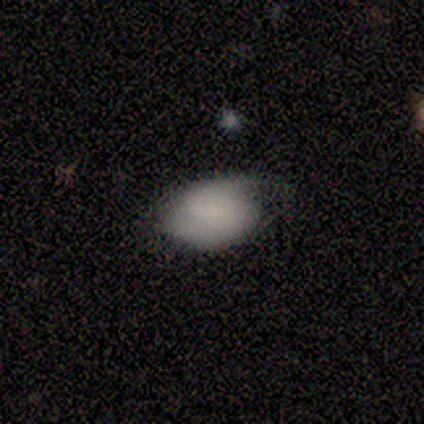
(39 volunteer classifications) smooth-or-featured: smooth: 67% | featured or disk: 28% | star or artifact: 5%
  how-rounded: in between: 77% | round: 23% | cigar-shaped: 0%
  merging: none: 49% | minor disturbance: 38% | major disturbance: 11% | merger: 3%